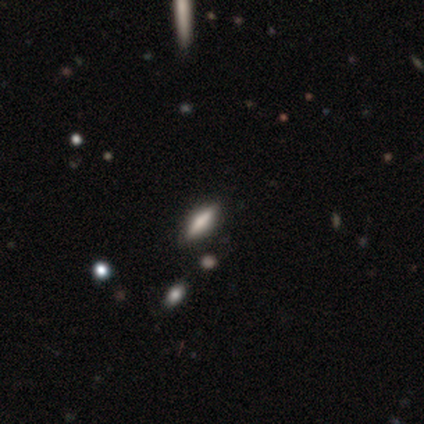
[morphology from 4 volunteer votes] type=smooth (75%); roundness=cigar-shaped (67%); merging=none (50%).